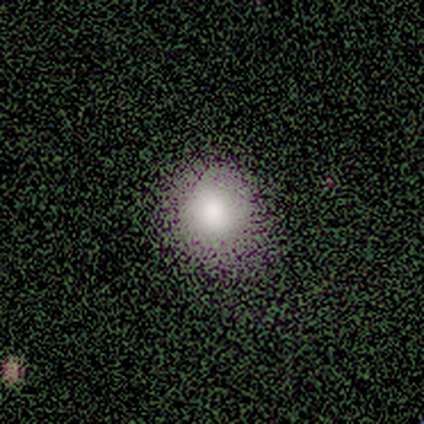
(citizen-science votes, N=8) This is likely a smooth galaxy (62%). How rounded: clearly round (80%). Merging: likely none (67%).